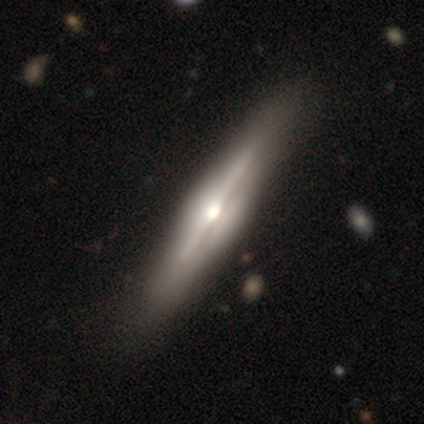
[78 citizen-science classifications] Smooth or featured? 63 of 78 (81%) said featured or disk. Edge-on disk? 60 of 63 (95%) said yes. Edge-on bulge? 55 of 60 (92%) said rounded. Merging? 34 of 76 (45%) said none.